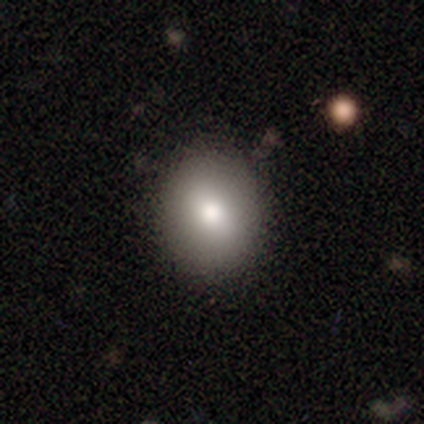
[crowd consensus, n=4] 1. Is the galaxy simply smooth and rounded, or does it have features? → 100% smooth, 0% featured or disk, 0% star or artifact.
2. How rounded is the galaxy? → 75% round, 25% in between, 0% cigar-shaped.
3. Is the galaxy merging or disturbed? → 100% none, 0% minor disturbance, 0% major disturbance, 0% merger.